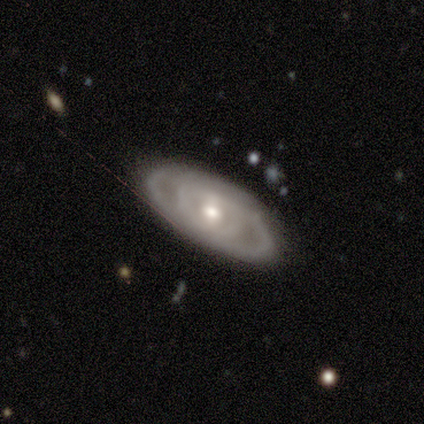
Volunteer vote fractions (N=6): This appears to be a featured or disk galaxy (100%) with a weak bar (50%, tied with no), tight (75%) spiral arms (67%) and a small central bulge (67%). Merging: none (83%).